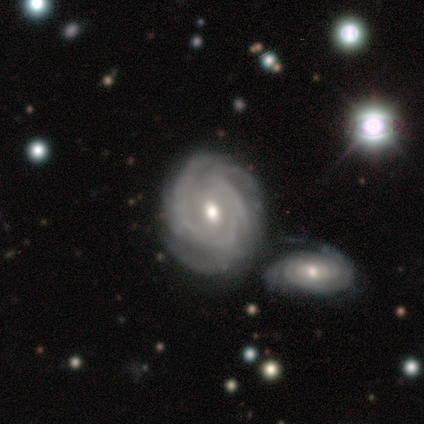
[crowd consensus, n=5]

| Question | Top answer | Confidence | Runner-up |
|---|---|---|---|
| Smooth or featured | featured or disk | 100% | — |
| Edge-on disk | no | 100% | — |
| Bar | no | 60% | strong (20%) |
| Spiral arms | yes | 80% | no (20%) |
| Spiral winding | tight | 75% | medium (25%) |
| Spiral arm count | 2 | 25% | tied: 3 (25%), more than 4 (25%), can't tell (25%) |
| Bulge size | small | 60% | large (20%) |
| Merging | none | 60% | minor disturbance (40%) |